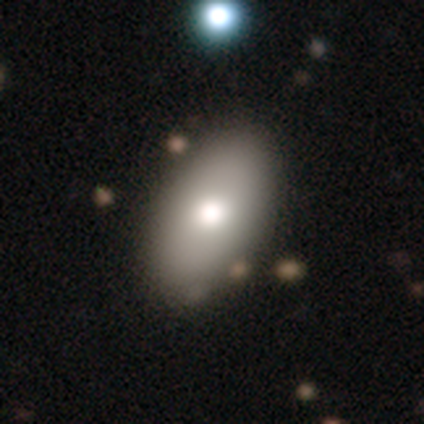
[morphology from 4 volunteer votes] Smooth or featured: star or artifact — 50% (smooth — 25%)